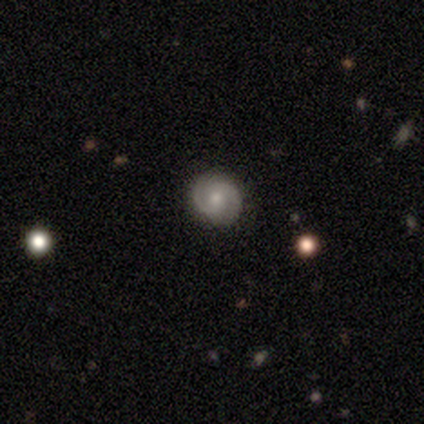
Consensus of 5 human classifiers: Smooth or featured: featured or disk — 100%
Edge-on disk: no — 100%
Bar: no — 60% (weak — 40%)
Spiral arms: yes — 100%
Spiral winding: medium — 80% (loose — 20%)
Spiral arm count: 2 — 100%
Bulge size: small — 60% (moderate — 40%)
Merging: none — 100%